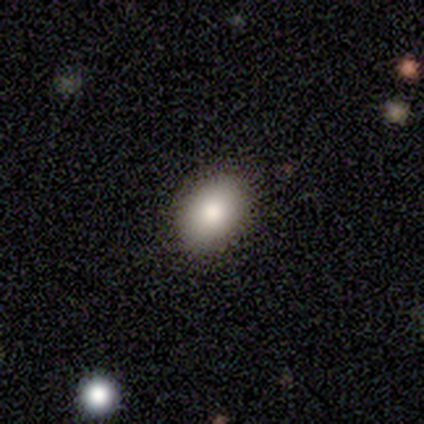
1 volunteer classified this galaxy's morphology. featured or disk 100%, smooth 0%, star or artifact 0%. Down the decision tree: edge-on disk — yes (100%); edge-on bulge — rounded (100%); merging — none (100%).